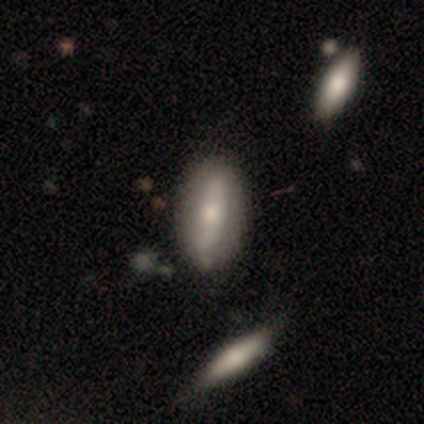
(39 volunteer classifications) Smooth or featured?
  - smooth: 69% *
  - featured or disk: 28%
  - star or artifact: 3%
How rounded?
  - in between: 81% *
  - cigar-shaped: 19%
  - round: 0%
Merging?
  - none: 79% *
  - minor disturbance: 18%
  - merger: 3%
  - major disturbance: 0%